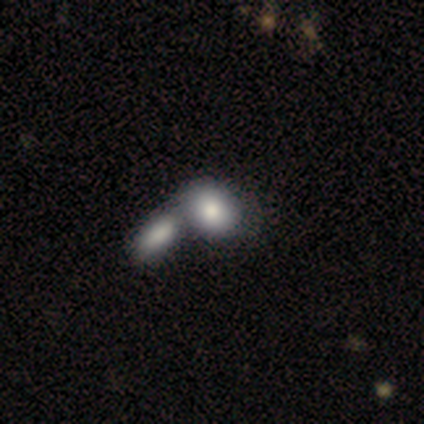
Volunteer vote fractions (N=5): Morphology: type=smooth (80%); roundness=round (50%, tied with in between); merging=none (50%, tied with merger).